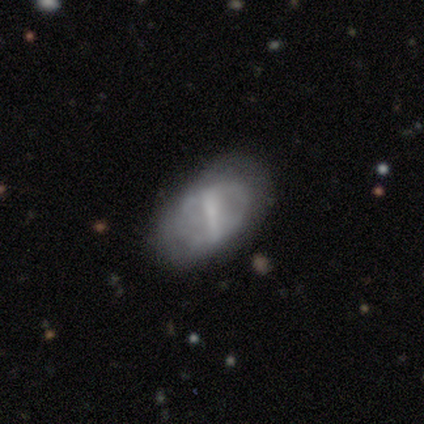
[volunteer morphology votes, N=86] smooth_or_featured: featured or disk (p=0.57) [alt: smooth p=0.40]
disk_edge_on: no (p=0.98) [alt: yes p=0.02]
bar: strong (p=0.71) [alt: weak p=0.25]
has_spiral_arms: no (p=0.52) [alt: yes p=0.48]
bulge_size: none (p=0.54) [alt: small p=0.31]
merging: none (p=0.61) [alt: minor disturbance p=0.28]